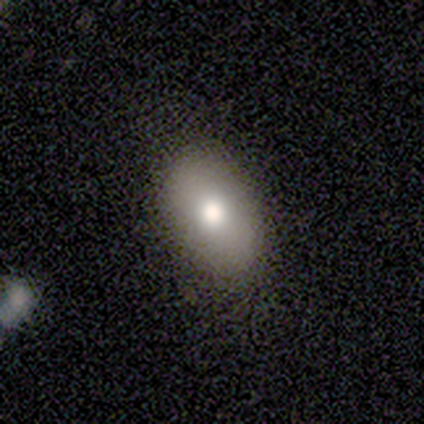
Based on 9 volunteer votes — smooth_or_featured: smooth (p=0.78) [alt: featured or disk p=0.11]
how_rounded: in between (p=0.86) [alt: round p=0.14]
merging: none (p=0.88) [alt: minor disturbance p=0.12]